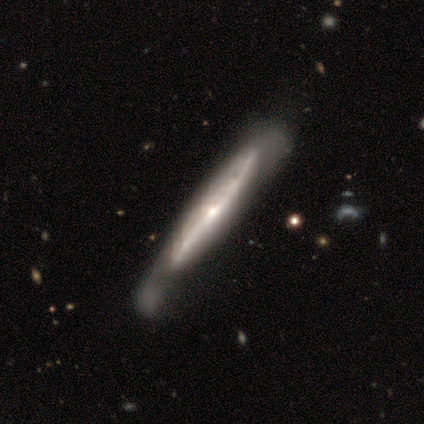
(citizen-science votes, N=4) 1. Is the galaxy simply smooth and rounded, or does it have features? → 100% featured or disk, 0% smooth, 0% star or artifact.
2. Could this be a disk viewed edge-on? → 75% yes, 25% no.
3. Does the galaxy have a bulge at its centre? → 33% boxy (tied), 33% none (tied), 33% rounded (tied).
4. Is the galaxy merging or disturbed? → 50% none, 25% minor disturbance, 25% merger, 0% major disturbance.